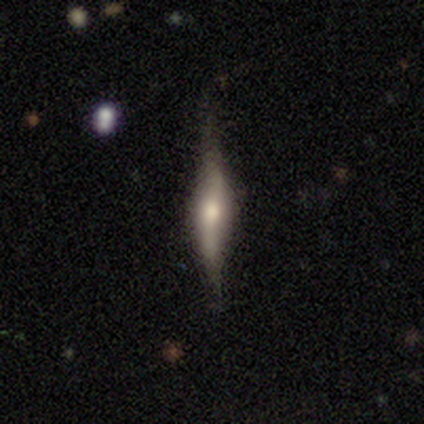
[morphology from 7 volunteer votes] featured or disk 86%, smooth 14%, star or artifact 0%. Down the decision tree: edge-on disk — yes (83%); edge-on bulge — rounded (80%); merging — none (71%).